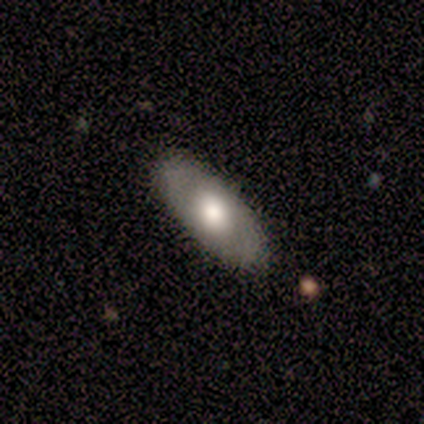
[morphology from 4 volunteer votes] Smooth or featured?
  - smooth: 75% *
  - featured or disk: 25%
  - star or artifact: 0%
How rounded?
  - in between: 67% *
  - round: 33%
  - cigar-shaped: 0%
Merging?
  - none: 100% *
  - minor disturbance: 0%
  - major disturbance: 0%
  - merger: 0%